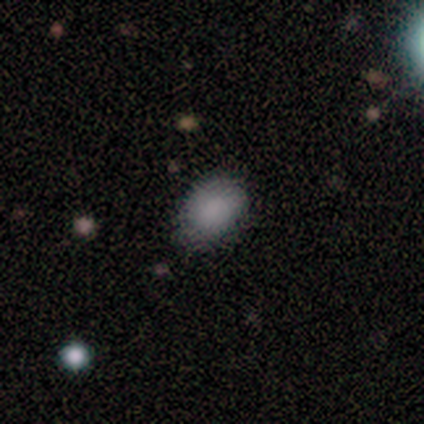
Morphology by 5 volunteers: Volunteers were most divided on "how rounded": in between: 80%, round: 20%, cigar-shaped: 0%. More confident: smooth or featured — smooth (100%); merging — none (80%).